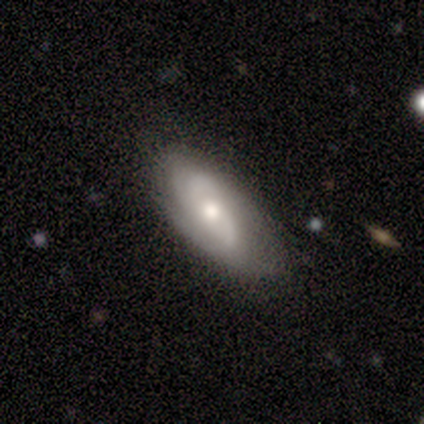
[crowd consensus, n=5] smooth_or_featured: featured or disk (p=0.60) [alt: smooth p=0.40]
disk_edge_on: no (p=1.00)
bar: no (p=1.00)
has_spiral_arms: yes (p=1.00)
spiral_winding: tight (p=0.33) [tied with: medium p=0.33, loose p=0.33]
spiral_arm_count: 2 (p=0.67) [alt: 3 p=0.33]
bulge_size: small (p=0.67) [alt: moderate p=0.33]
merging: none (p=1.00)